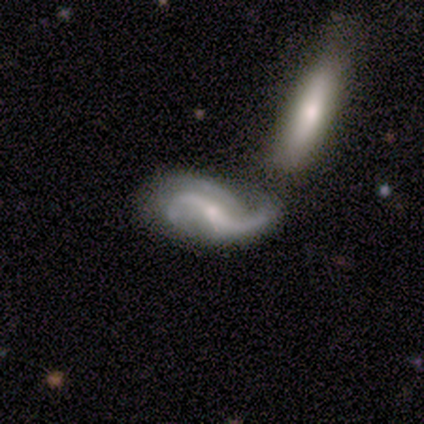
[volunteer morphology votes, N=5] type=featured or disk (80%); edge-on=no (100%); bar=weak (50%, tied with no); spiral arms=yes (100%); winding=loose (100%); arm count=2 (100%); bulge=moderate (50%); merging=none (50%).